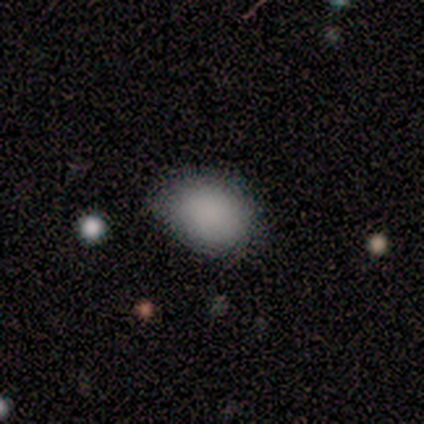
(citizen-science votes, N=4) smooth_or_featured: smooth (p=0.75) [alt: featured or disk p=0.25]
how_rounded: round (p=0.67) [alt: in between p=0.33]
merging: none (p=1.00)